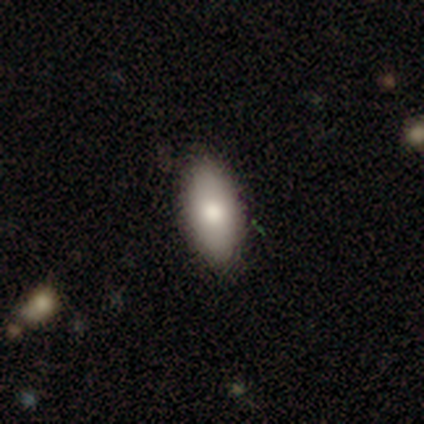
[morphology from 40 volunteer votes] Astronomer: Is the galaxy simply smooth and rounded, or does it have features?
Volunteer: smooth — 82%.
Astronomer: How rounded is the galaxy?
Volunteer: in between — 88%.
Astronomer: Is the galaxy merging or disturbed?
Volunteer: none — 85%.